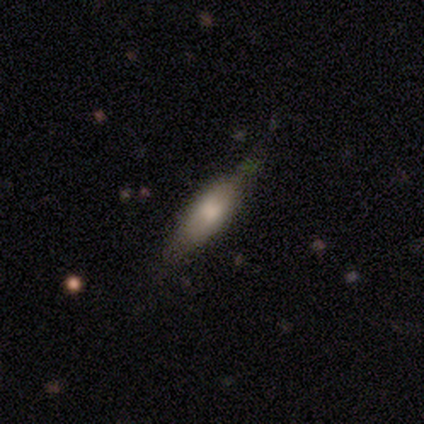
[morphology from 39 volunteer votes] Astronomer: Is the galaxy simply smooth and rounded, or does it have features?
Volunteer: smooth — 62%.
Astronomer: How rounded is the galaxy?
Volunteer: cigar-shaped — 58% (runner-up: in between, 42%).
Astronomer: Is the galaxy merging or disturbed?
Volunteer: none — 68%.